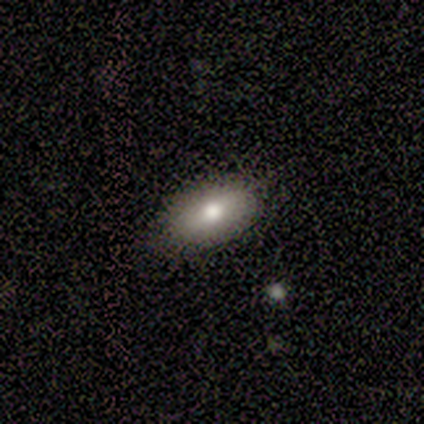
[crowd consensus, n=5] Smooth or featured: smooth — 80% (featured or disk — 20%)
How rounded: in between — 100%
Merging: none — 60% (minor disturbance — 40%)